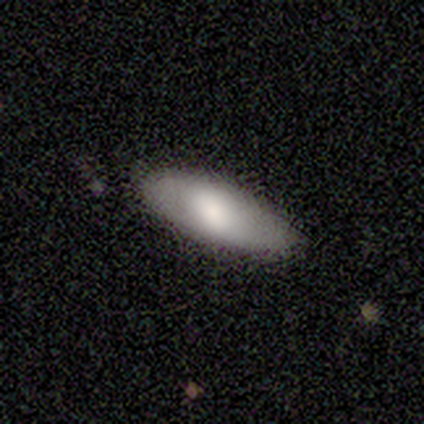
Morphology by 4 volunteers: Overall: smooth (75%). How rounded: in between (67%; cigar-shaped 33%). Merging: none (100%).